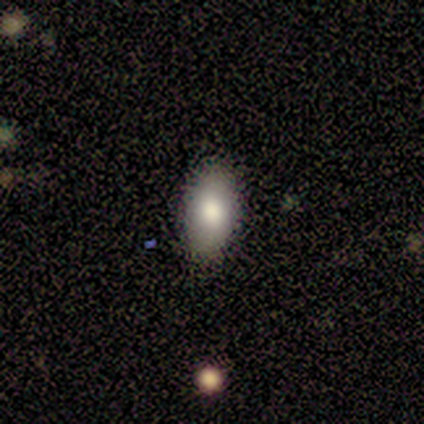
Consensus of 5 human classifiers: smooth-or-featured: smooth: 100% | featured or disk: 0% | star or artifact: 0%
  how-rounded: in between: 100% | round: 0% | cigar-shaped: 0%
  merging: none: 100% | minor disturbance: 0% | major disturbance: 0% | merger: 0%